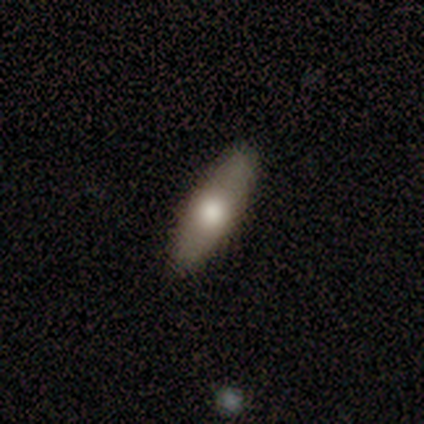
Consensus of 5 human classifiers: A smooth galaxy with no disk features (80%) that is in between round and cigar-shaped (50%, tied with cigar-shaped). Merging: none (100%).